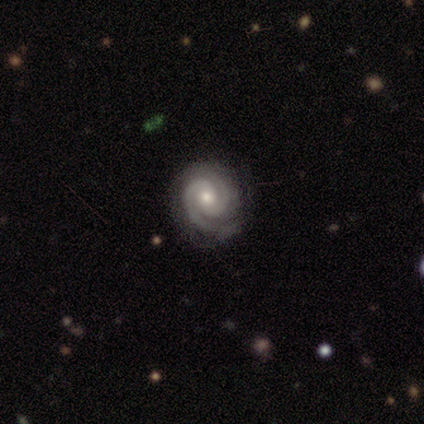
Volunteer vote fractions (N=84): smooth_or_featured: featured or disk (p=0.88) [alt: star or artifact p=0.07]
disk_edge_on: no (p=1.00)
bar: no (p=0.72) [alt: weak p=0.23]
has_spiral_arms: yes (p=1.00)
spiral_winding: tight (p=0.64) [alt: medium p=0.32]
spiral_arm_count: 2 (p=0.92) [alt: 3 p=0.07]
bulge_size: moderate (p=0.66) [alt: small p=0.30]
merging: none (p=0.76) [alt: minor disturbance p=0.22]